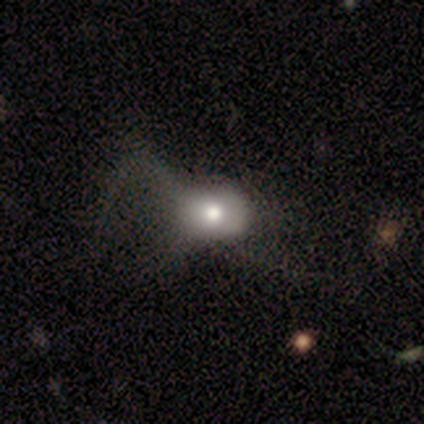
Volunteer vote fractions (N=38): Smooth or featured?
  - smooth: 61% *
  - featured or disk: 37%
  - star or artifact: 3%
How rounded?
  - in between: 61% *
  - round: 39%
  - cigar-shaped: 0%
Merging?
  - major disturbance: 49% *
  - none: 16%
  - merger: 5%
  - minor disturbance: 0%